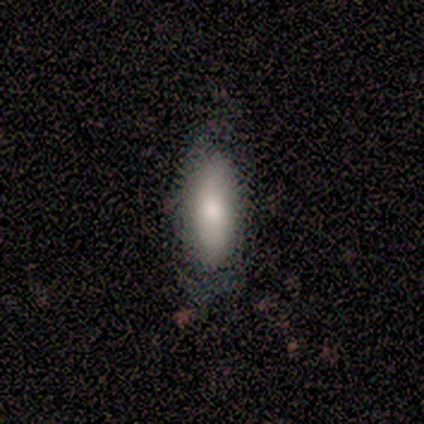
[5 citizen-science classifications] Overall: smooth (80%). How rounded: in between (50%, tied with cigar-shaped). Merging: none (100%).